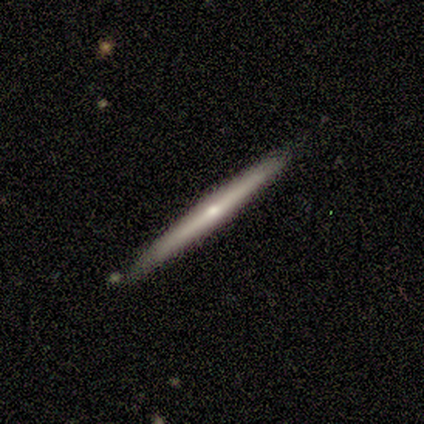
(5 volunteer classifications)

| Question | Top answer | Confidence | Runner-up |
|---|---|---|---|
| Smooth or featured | featured or disk | 60% | smooth (40%) |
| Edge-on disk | yes | 100% | — |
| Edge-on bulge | rounded | 67% | none (33%) |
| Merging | none | 80% | minor disturbance (20%) |